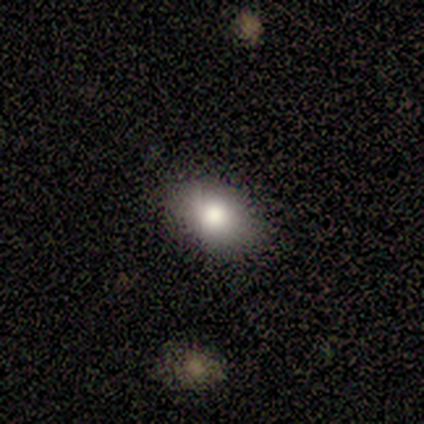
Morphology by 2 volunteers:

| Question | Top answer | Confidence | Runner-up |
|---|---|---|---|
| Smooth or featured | smooth | 100% | — |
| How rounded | in between | 100% | — |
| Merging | none | 100% | — |